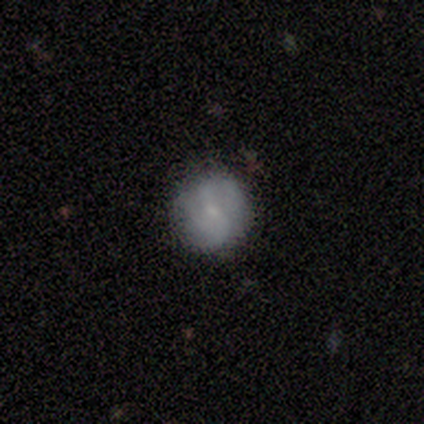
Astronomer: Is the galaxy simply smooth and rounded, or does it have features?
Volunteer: smooth — 60% (runner-up: featured or disk, 40%).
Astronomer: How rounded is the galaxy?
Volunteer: round — 100%.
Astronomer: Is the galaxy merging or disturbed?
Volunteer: none — 100%.